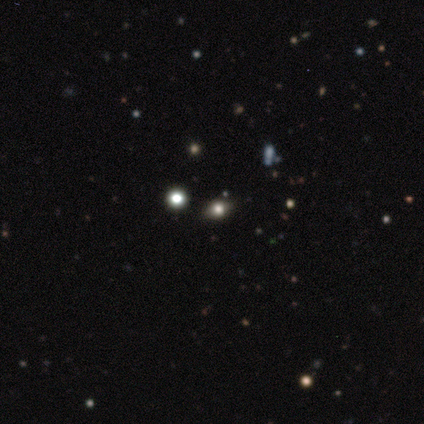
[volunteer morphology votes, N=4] This is likely a smooth galaxy (75%). How rounded: likely in between (67%). Merging: clearly none (100%).